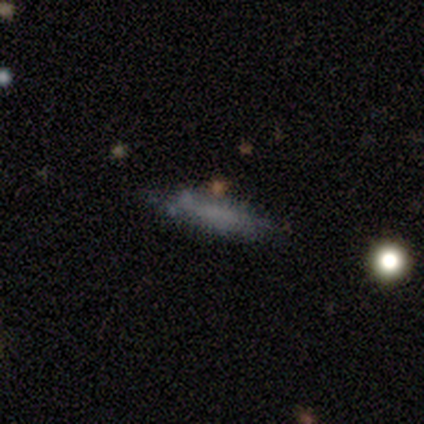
This is marginally a smooth galaxy (40%, tied with featured or disk). How rounded: clearly cigar-shaped (100%). Merging: likely none (75%).